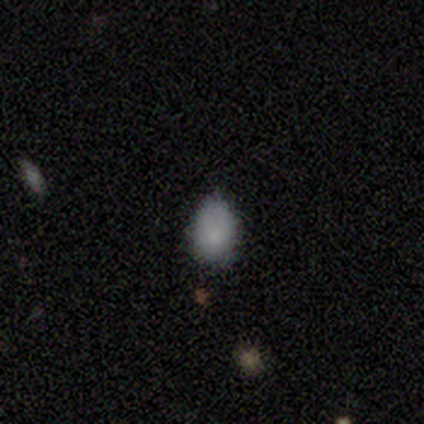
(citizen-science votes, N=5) smooth-or-featured: smooth: 100% | featured or disk: 0% | star or artifact: 0%
  how-rounded: in between: 60% | round: 40% | cigar-shaped: 0%
  merging: minor disturbance: 80% | none: 20% | major disturbance: 0% | merger: 0%